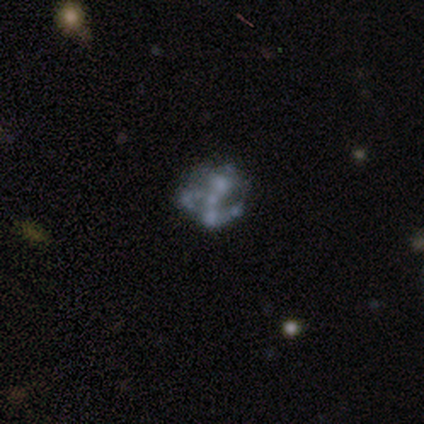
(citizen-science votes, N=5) featured or disk 80%, star or artifact 20%, smooth 0%. Down the decision tree: edge-on disk — no (100%); bar — no (75%); spiral arms — no (75%); bulge size — none (75%); merging — none (25%, tied with minor disturbance, major disturbance and merger).